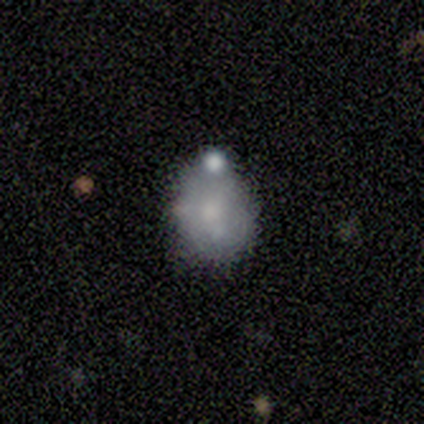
Volunteers were most divided on "smooth or featured" (2-way tie): smooth: 50%, featured or disk: 50%, star or artifact: 0%. More confident: how rounded — in between (67%); merging — none (50%).